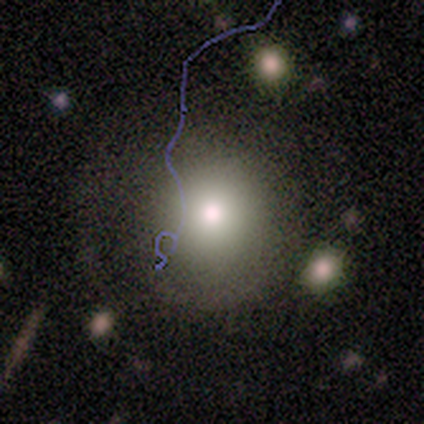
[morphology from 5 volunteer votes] This is clearly a smooth galaxy (80%). How rounded: clearly round (100%). Merging: clearly none (100%).